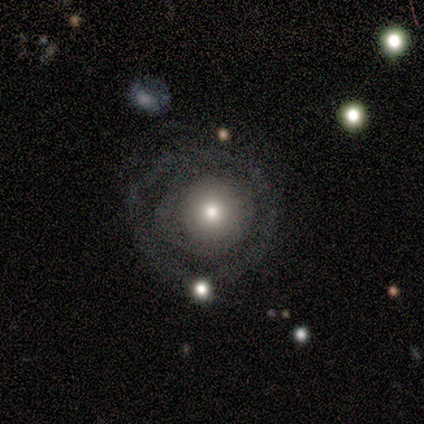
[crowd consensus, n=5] smooth 60%, featured or disk 40%, star or artifact 0%. Down the decision tree: how rounded — round (67%); merging — none (80%).